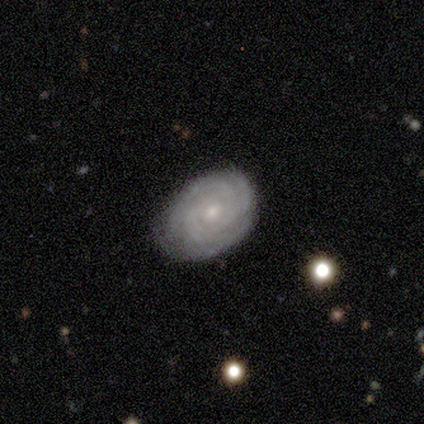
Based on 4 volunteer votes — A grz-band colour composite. It shows a featured or disk galaxy (75%) with no bar (100%), 3 (67%) tight (67%) spiral arms (100%) and a small central bulge (67%). Merging: none (100%).